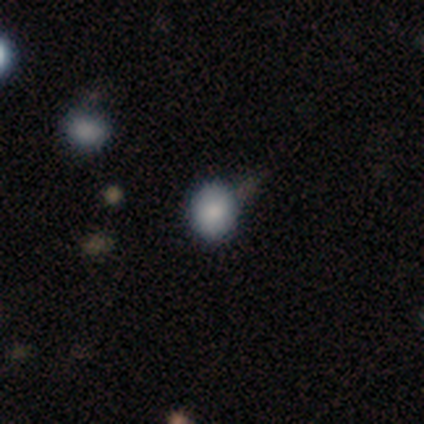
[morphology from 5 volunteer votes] This is clearly a smooth galaxy (100%). How rounded: likely in between (60%). Merging: clearly none (80%).